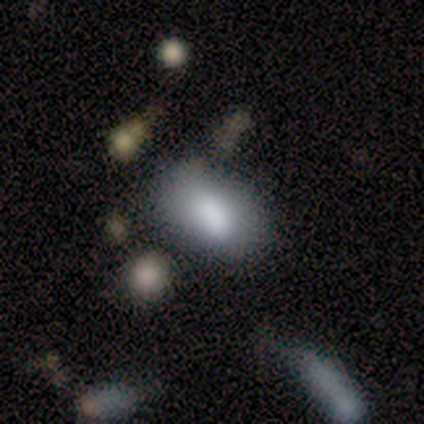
Volunteers were most divided on "merging": none: 50%, minor disturbance: 33%, merger: 17%, major disturbance: 0%. More confident: how rounded — in between (100%); smooth or featured — smooth (67%).